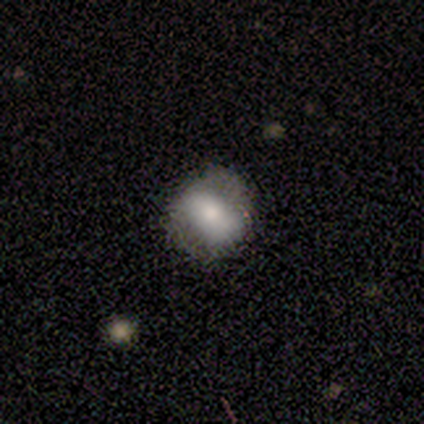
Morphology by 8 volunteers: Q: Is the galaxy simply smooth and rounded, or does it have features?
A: smooth — 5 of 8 (62%).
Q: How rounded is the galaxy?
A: round — 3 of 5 (60%).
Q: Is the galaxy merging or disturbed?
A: none — 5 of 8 (62%).